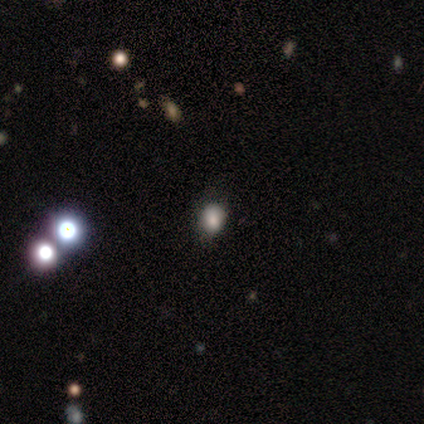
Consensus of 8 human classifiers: Smooth or featured? 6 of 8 (75%) said smooth. How rounded? 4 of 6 (67%) said round. Merging? 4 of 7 (57%) said none.